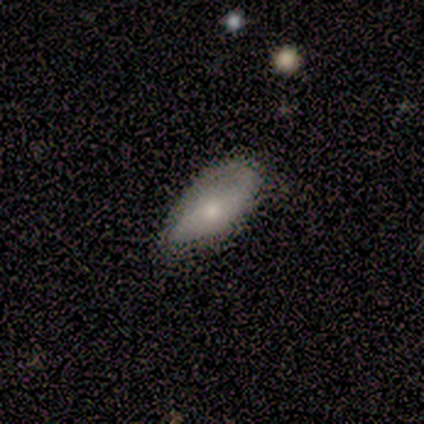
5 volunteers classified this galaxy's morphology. Overall: featured or disk (60%; smooth 40%). Edge-on disk: no (100%). Bar: no (67%; weak 33%). Spiral arms: yes (100%). Spiral arm count: 1 (33%, tied with 2 and can't tell). Spiral winding: medium (67%; loose 33%). Bulge size: moderate (100%). Merging: none (60%; minor disturbance 20%).